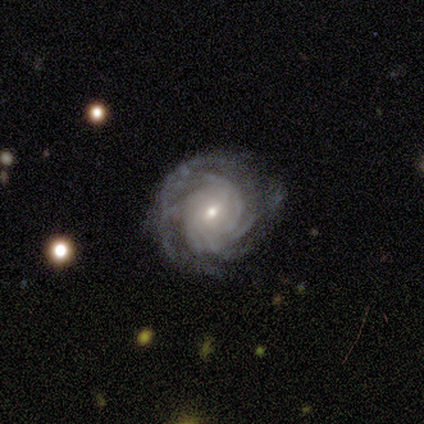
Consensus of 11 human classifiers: smooth-or-featured: featured or disk: 100% | smooth: 0% | star or artifact: 0%
  disk-edge-on: no: 100% | yes: 0%
    bar: weak: 55% | no: 36% | strong: 9%
    has-spiral-arms: yes: 100% | no: 0%
      spiral-winding: tight: 82% | medium: 18% | loose: 0%
      spiral-arm-count: 4: 36% (tied) | more than 4: 36% (tied) | can't tell: 18% | 3: 9% | 1: 0% | 2: 0%
    bulge-size: small: 45% | moderate: 36% | large: 9% | none: 9% | dominant: 0%
  merging: none: 73% | major disturbance: 18% | minor disturbance: 9% | merger: 0%